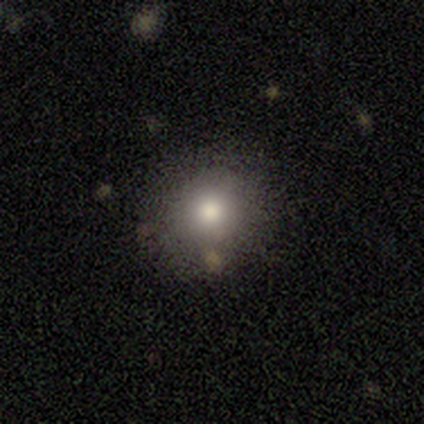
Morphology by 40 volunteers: Smooth or featured?
  - smooth: 82% *
  - star or artifact: 10%
  - featured or disk: 8%
How rounded?
  - round: 79% *
  - in between: 21%
  - cigar-shaped: 0%
Merging?
  - none: 86% *
  - minor disturbance: 8%
  - merger: 6%
  - major disturbance: 0%